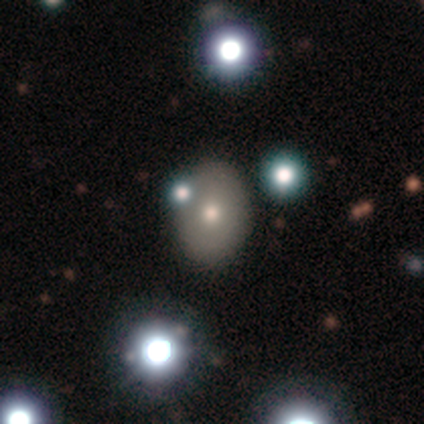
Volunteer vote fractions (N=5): Smooth or featured? smooth (60%)
How rounded? round (67%)
Merging? none (60%)